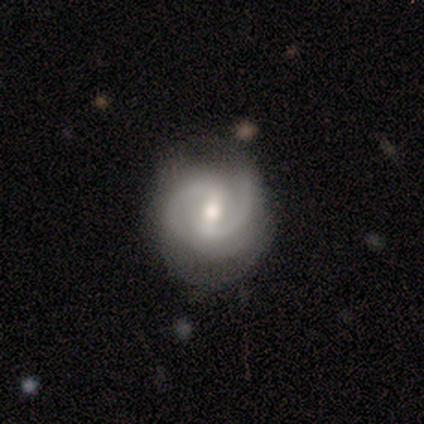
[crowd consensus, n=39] Volunteers were most divided on "bar": weak: 48%, strong: 33%, no: 18%. More confident: edge-on disk — no (100%); spiral arms — yes (94%); spiral arm count — 2 (87%); smooth or featured — featured or disk (85%); bulge size — moderate (61%); merging — none (58%); spiral winding — medium (52%).